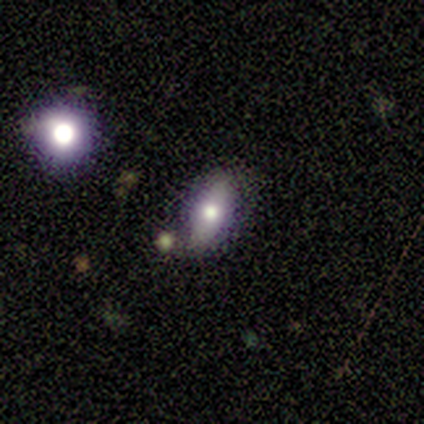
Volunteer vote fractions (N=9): Smooth or featured?
  - smooth: 56% *
  - featured or disk: 33%
  - star or artifact: 11%
How rounded?
  - in between: 80% *
  - round: 20%
  - cigar-shaped: 0%
Merging?
  - none: 62% *
  - minor disturbance: 25%
  - major disturbance: 12%
  - merger: 0%